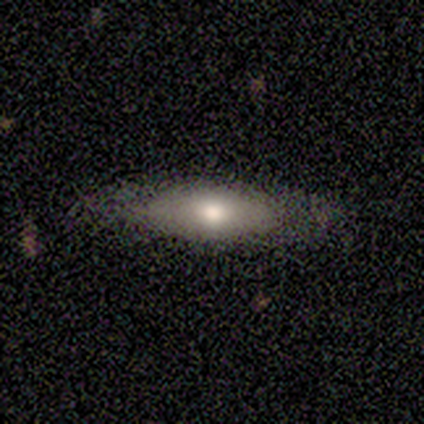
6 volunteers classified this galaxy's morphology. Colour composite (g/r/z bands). It shows a featured or disk galaxy (50%) viewed edge-on (67%) with a rounded central bulge (100%). Merging: none (80%).